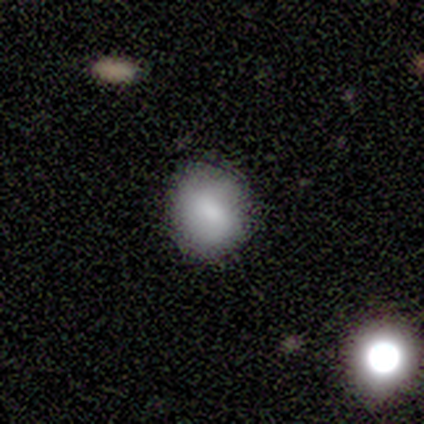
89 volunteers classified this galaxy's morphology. A smooth galaxy with no disk features (85%) that is round (82%). Merging: none (82%).